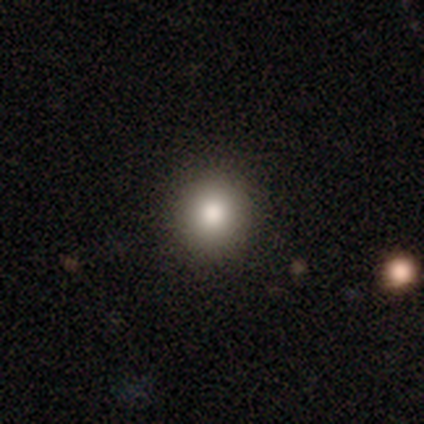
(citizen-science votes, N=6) smooth-or-featured: smooth: 100% | featured or disk: 0% | star or artifact: 0%
  how-rounded: round: 100% | in between: 0% | cigar-shaped: 0%
  merging: none: 100% | minor disturbance: 0% | major disturbance: 0% | merger: 0%